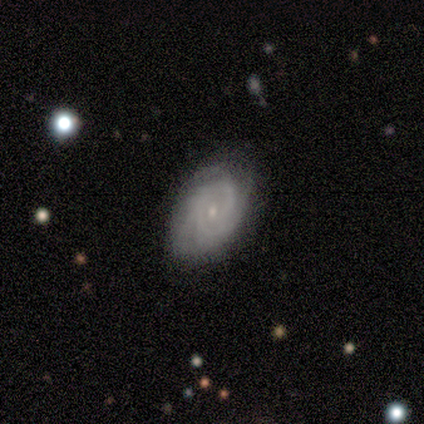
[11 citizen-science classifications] Smooth or featured? featured or disk (82%)
Edge-on disk? no (100%)
Bar? no (78%)
Spiral arms? yes (100%)
Spiral winding? tight (100%)
Spiral arm count? 2 (56%)
Bulge size? small (89%)
Merging? none (90%)